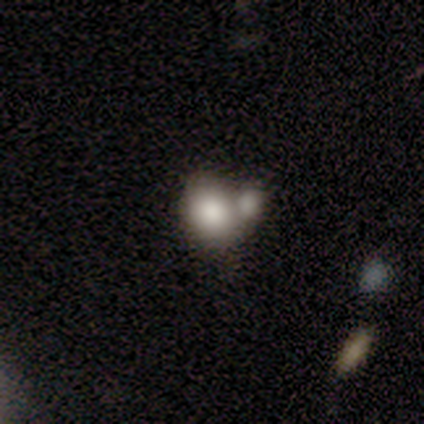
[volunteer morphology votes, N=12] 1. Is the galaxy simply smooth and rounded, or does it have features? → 75% smooth, 17% star or artifact, 8% featured or disk.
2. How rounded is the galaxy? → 78% in between, 22% round, 0% cigar-shaped.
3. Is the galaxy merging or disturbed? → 70% merger, 30% none, 0% minor disturbance, 0% major disturbance.